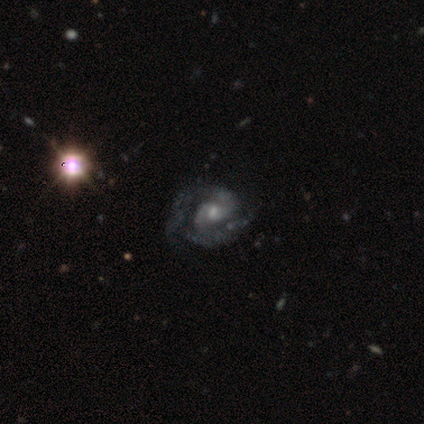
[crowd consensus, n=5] A featured or disk galaxy (100%) with no bar (60%), 2 (60%) medium (60%) spiral arms (100%) and a small central bulge (60%).

Vote fractions:
- Smooth or featured? featured or disk: 100% / smooth: 0% / star or artifact: 0%
- Edge-on disk? no: 100% / yes: 0%
- Bar? no: 60% / strong: 20% / weak: 20%
- Spiral arms? yes: 100% / no: 0%
- Spiral winding? medium: 60% / tight: 40% / loose: 0%
- Spiral arm count? 2: 60% / can't tell: 40% / 1: 0% / 3: 0% / 4: 0% / more than 4: 0%
- Bulge size? small: 60% / moderate: 40% / dominant: 0% / large: 0% / none: 0%
- Merging? none: 80% / minor disturbance: 20% / major disturbance: 0% / merger: 0%